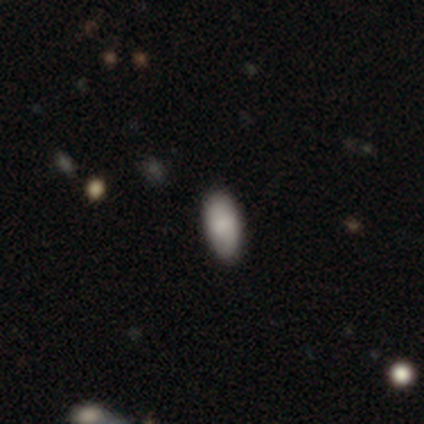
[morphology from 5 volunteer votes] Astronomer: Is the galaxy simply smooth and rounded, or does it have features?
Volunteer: smooth — 100%.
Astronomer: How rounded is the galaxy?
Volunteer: in between — 100%.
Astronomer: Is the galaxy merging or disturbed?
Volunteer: none — 100%.